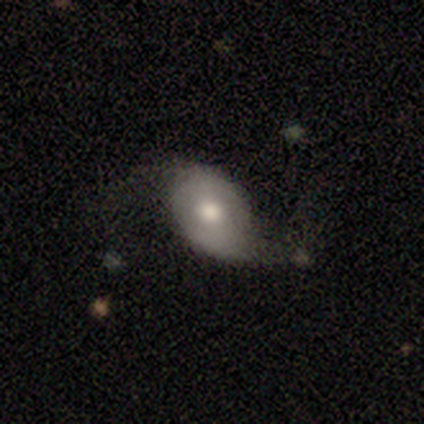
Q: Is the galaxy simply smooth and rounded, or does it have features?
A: featured or disk — 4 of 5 (80%).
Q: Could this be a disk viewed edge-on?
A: no — 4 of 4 (100%).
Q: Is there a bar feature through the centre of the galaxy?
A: no — 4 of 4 (100%).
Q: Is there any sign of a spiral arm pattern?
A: yes — 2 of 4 (50%, tied with no).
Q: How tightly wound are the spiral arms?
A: loose — 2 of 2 (100%).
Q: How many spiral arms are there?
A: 2 — 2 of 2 (100%).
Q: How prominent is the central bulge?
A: large — 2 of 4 (50%, tied with moderate).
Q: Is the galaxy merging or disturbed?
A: none — 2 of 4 (50%, tied with major disturbance).